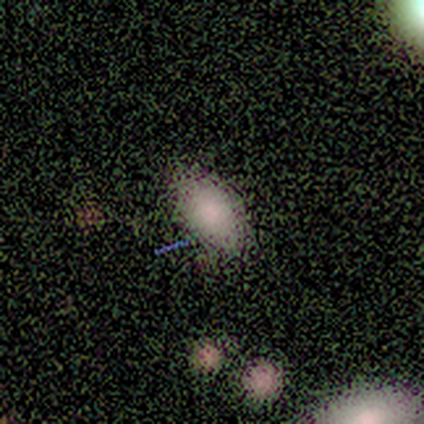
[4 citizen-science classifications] Smooth or featured? smooth (75%)
How rounded? in between (100%)
Merging? none (67%)